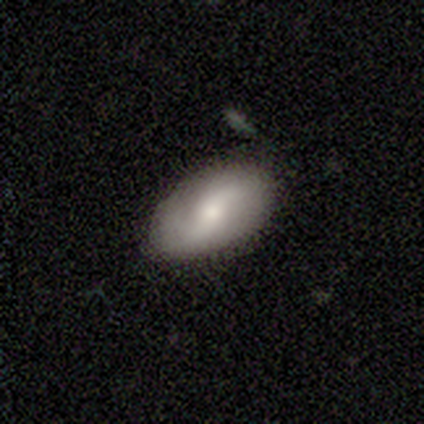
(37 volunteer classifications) This appears to be a featured or disk galaxy (54%) with no bar (53%), 2 (94%) loose (44%) spiral arms (84%) and a small central bulge (47%). Merging: none (85%).